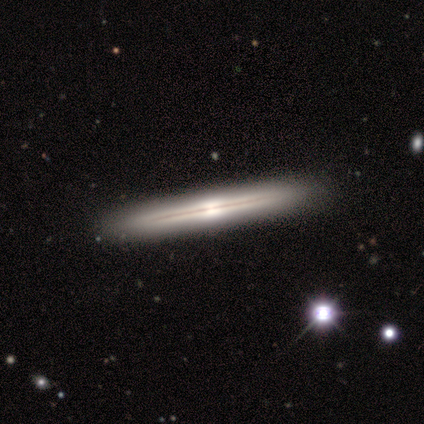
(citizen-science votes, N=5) featured or disk 80%, smooth 20%, star or artifact 0%. Down the decision tree: edge-on disk — yes (100%); edge-on bulge — boxy (50%, tied with rounded); merging — none (100%).